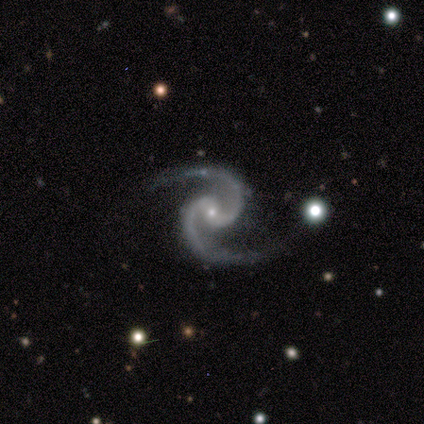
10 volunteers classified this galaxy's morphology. This appears to be a featured or disk galaxy (100%) with a weak bar (40%, tied with no), 2 (100%) medium (100%) spiral arms (100%) and a small central bulge (100%). Merging: none (100%).